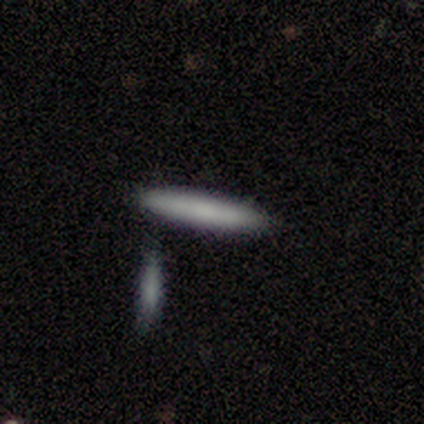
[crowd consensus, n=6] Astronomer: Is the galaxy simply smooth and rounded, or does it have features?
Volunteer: smooth — 67%.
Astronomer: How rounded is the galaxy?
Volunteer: cigar-shaped — 100%.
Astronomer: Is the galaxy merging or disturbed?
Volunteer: none — 60%.